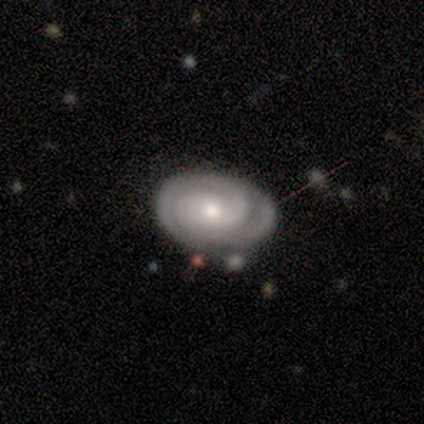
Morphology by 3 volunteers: A smooth galaxy with no disk features (33%, tied with featured or disk and star or artifact) that is in between round and cigar-shaped (100%).

Vote fractions:
- Smooth or featured? smooth: 33% (tied) / featured or disk: 33% (tied) / star or artifact: 33% (tied)
- How rounded? in between: 100% / round: 0% / cigar-shaped: 0%
- Merging? none: 50% (tied) / major disturbance: 50% (tied) / minor disturbance: 0% / merger: 0%